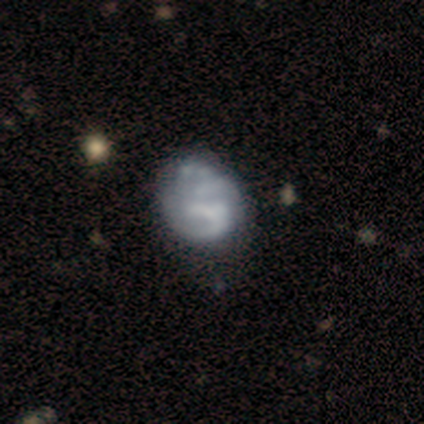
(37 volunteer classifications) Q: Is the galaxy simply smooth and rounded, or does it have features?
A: featured or disk — 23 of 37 (62%).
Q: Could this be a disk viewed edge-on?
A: no — 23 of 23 (100%).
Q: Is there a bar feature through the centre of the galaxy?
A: no — 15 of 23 (65%).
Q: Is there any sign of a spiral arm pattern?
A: no — 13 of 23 (57%).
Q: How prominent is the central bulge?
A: none — 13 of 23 (57%).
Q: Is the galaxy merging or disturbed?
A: none — 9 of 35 (26%).